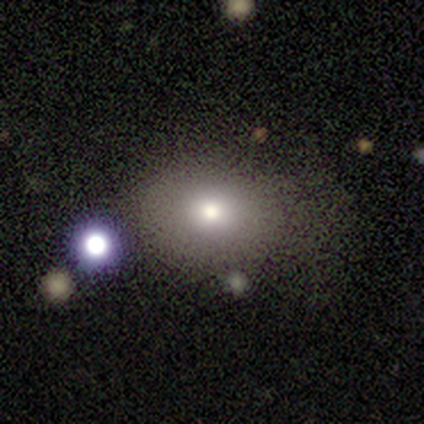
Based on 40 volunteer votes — smooth-or-featured: smooth: 72% | star or artifact: 18% | featured or disk: 10%
  how-rounded: round: 52% | in between: 48% | cigar-shaped: 0%
  merging: none: 70% | minor disturbance: 18% | major disturbance: 9% | merger: 3%